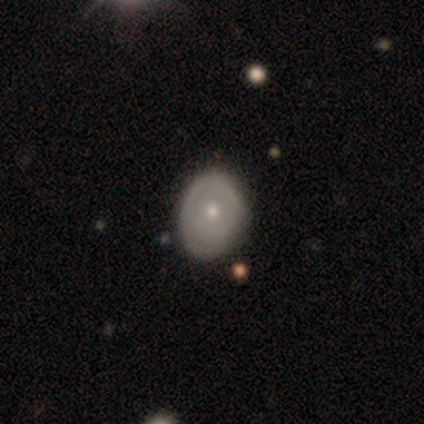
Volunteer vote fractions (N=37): Morphology: type=featured or disk (57%); edge-on=no (90%); bar=no (95%); spiral arms=no (74%); bulge=moderate (58%); merging=none (46%).